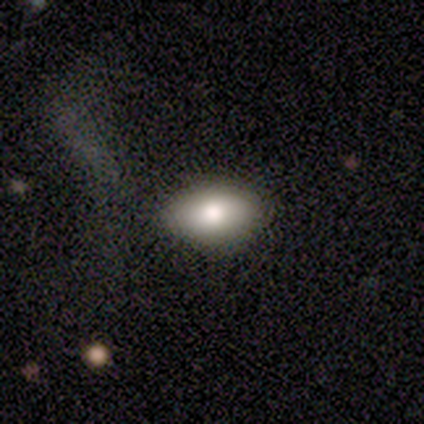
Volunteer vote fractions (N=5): A smooth galaxy with no disk features (80%) that is in between round and cigar-shaped (50%).

Vote fractions:
- Smooth or featured? smooth: 80% / star or artifact: 20% / featured or disk: 0%
- How rounded? in between: 50% / round: 25% / cigar-shaped: 25%
- Merging? none: 100% / minor disturbance: 0% / major disturbance: 0% / merger: 0%